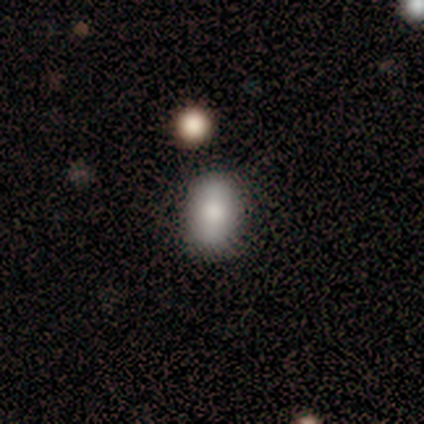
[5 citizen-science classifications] Q: Smooth or featured?
A: smooth (80%); runner-up: featured or disk (20%)
Q: How rounded?
A: in between (100%)
Q: Merging?
A: none (100%)